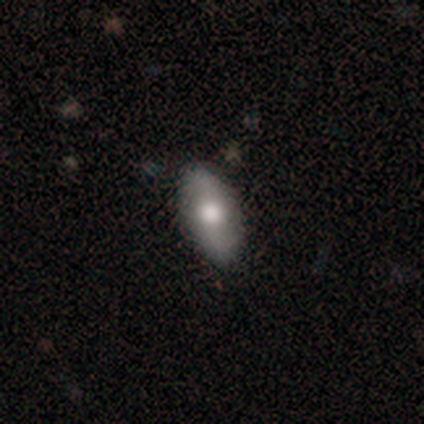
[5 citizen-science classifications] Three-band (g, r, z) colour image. It shows a smooth galaxy with no disk features (40%, tied with star or artifact) that is in between round and cigar-shaped (100%). Merging: none (100%).